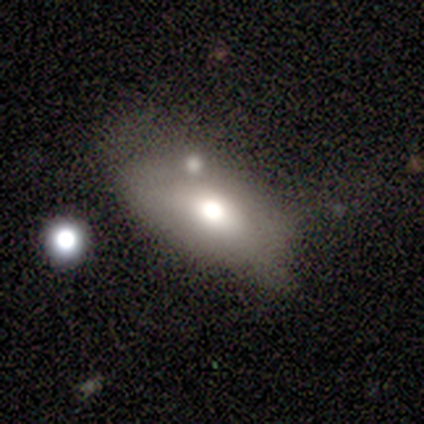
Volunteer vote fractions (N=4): A smooth galaxy with no disk features (50%) that is in between round and cigar-shaped (100%).

Vote fractions:
- Smooth or featured? smooth: 50% / featured or disk: 25% / star or artifact: 25%
- How rounded? in between: 100% / round: 0% / cigar-shaped: 0%
- Merging? minor disturbance: 67% / merger: 33% / none: 0% / major disturbance: 0%